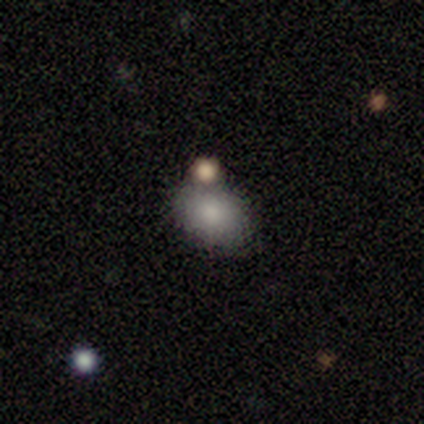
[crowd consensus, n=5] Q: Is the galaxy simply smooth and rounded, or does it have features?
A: smooth — 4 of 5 (80%).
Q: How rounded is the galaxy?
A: round — 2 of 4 (50%, tied with in between).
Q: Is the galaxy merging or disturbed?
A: merger — 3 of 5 (60%).